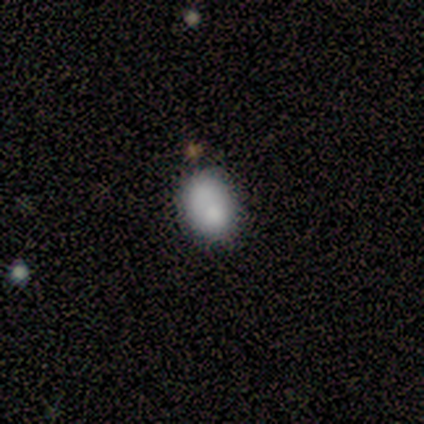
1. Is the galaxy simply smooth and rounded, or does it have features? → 100% smooth, 0% featured or disk, 0% star or artifact.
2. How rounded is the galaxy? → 100% in between, 0% round, 0% cigar-shaped.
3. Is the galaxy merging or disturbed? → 60% none, 20% minor disturbance, 20% merger, 0% major disturbance.